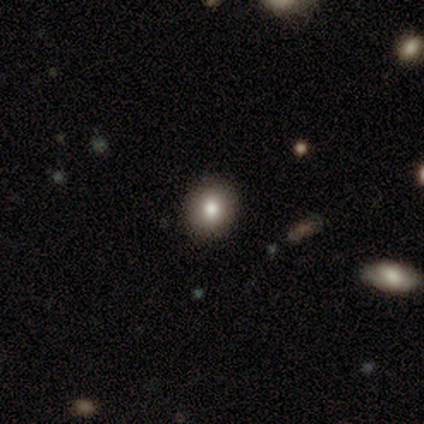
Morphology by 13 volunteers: Smooth or featured? 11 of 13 (85%) said smooth. How rounded? 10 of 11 (91%) said round. Merging? 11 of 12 (92%) said none.